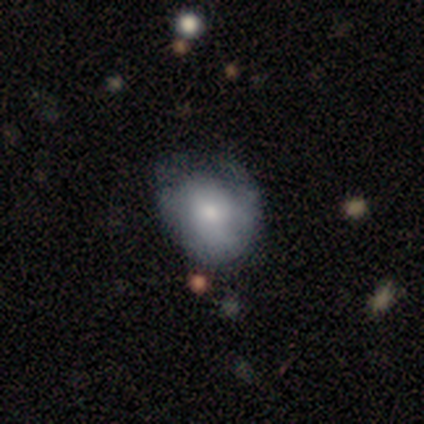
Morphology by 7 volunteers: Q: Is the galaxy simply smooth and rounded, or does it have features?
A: smooth — 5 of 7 (71%).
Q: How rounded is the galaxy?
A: round — 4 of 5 (80%).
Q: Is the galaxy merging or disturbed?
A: none — 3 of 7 (43%).